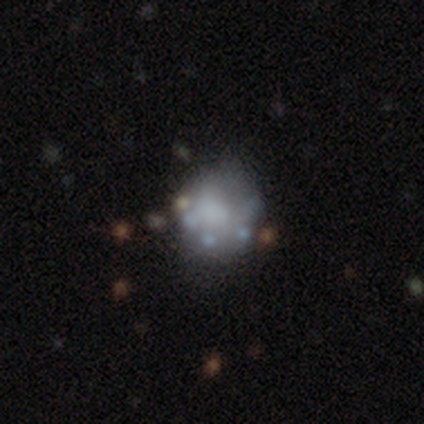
Smooth or featured? 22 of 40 (55%) said featured or disk. Edge-on disk? 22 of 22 (100%) said no. Bar? 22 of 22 (100%) said no. Spiral arms? 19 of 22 (86%) said no. Bulge size? 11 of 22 (50%) said none. Merging? 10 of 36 (28%) said none.